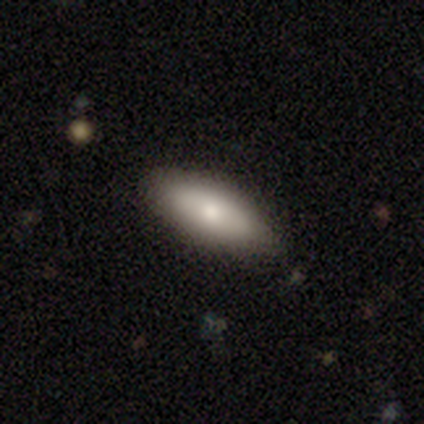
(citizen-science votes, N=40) A smooth galaxy with no disk features (70%) that is in between round and cigar-shaped (64%).

Vote fractions:
- Smooth or featured? smooth: 70% / featured or disk: 22% / star or artifact: 8%
- How rounded? in between: 64% / cigar-shaped: 36% / round: 0%
- Merging? none: 84% / minor disturbance: 16% / major disturbance: 0% / merger: 0%